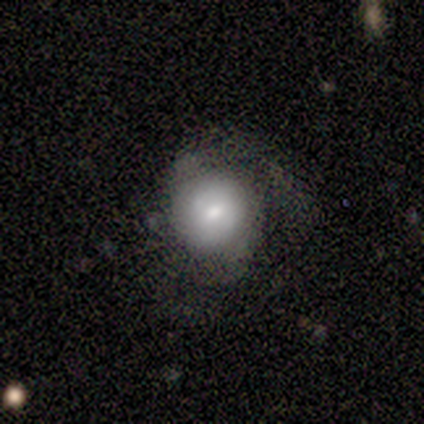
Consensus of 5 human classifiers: Smooth or featured: smooth — 80% (featured or disk — 20%)
How rounded: round — 100%
Merging: none — 40% (tied with minor disturbance — 40%)